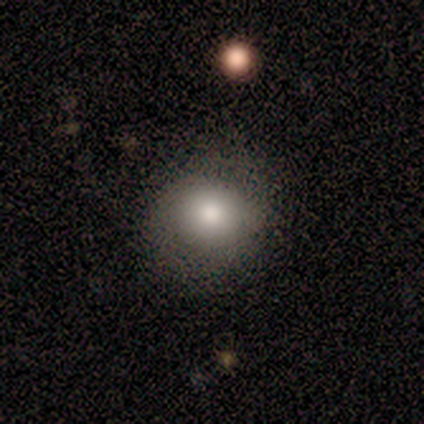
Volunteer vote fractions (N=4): Morphology: type=smooth (75%); roundness=round (100%); merging=none (33%, tied with minor disturbance and major disturbance).